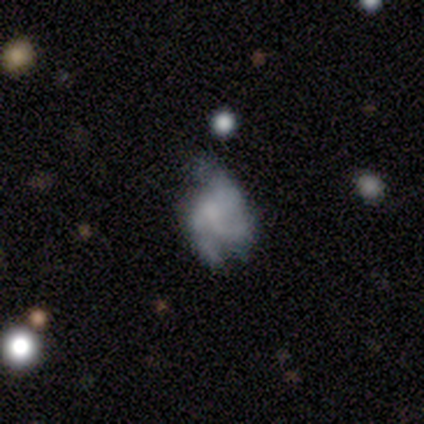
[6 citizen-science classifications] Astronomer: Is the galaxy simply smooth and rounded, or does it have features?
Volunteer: featured or disk — 67%.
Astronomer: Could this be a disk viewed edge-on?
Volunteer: no — 100%.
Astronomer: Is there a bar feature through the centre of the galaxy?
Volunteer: no — 75%.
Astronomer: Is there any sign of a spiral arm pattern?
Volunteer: yes — 100%.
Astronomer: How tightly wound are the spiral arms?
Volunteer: medium — 50%.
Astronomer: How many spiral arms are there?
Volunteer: can't tell — 50%.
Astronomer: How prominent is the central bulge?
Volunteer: small — 50%, tied with none at 50%.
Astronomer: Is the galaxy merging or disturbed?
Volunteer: major disturbance — 67%.